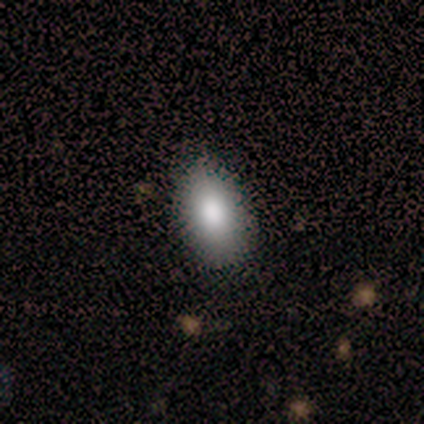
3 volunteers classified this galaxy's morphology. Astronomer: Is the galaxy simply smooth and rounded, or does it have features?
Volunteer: smooth — 100%.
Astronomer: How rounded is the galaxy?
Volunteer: in between — 100%.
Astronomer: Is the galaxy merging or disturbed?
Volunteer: none — 100%.